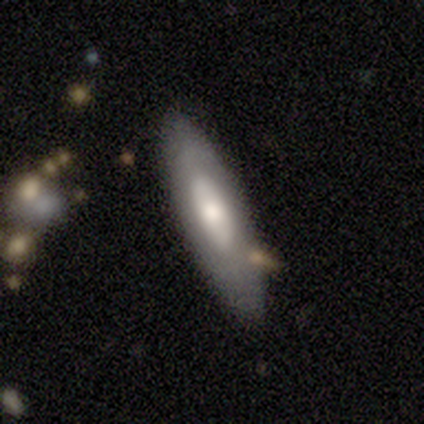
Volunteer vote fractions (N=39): This appears to be a featured or disk galaxy (54%) with no bar (93%), no spiral arms (93%) and a moderate central bulge (64%). Merging: none (82%).